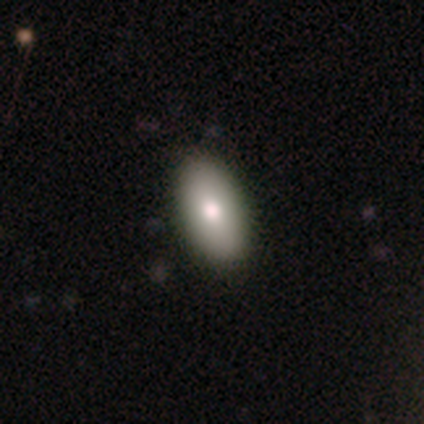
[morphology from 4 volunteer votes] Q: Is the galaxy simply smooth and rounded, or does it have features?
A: smooth — 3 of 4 (75%).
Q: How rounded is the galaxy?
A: in between — 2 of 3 (67%).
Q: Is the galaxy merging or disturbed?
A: none — 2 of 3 (67%).